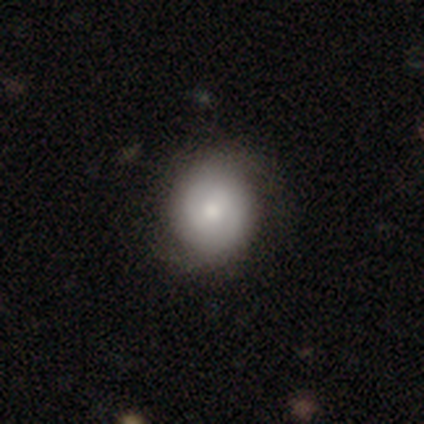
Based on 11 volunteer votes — smooth_or_featured: smooth (p=0.64) [alt: featured or disk p=0.18]
how_rounded: round (p=0.86) [alt: in between p=0.14]
merging: none (p=0.56) [alt: minor disturbance p=0.44]